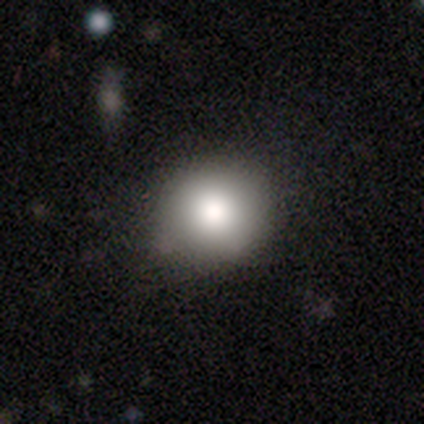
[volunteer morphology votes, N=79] smooth-or-featured: smooth: 84% | star or artifact: 10% | featured or disk: 6%
  how-rounded: round: 91% | in between: 9% | cigar-shaped: 0%
  merging: none: 79% | minor disturbance: 18% | major disturbance: 1% | merger: 1%